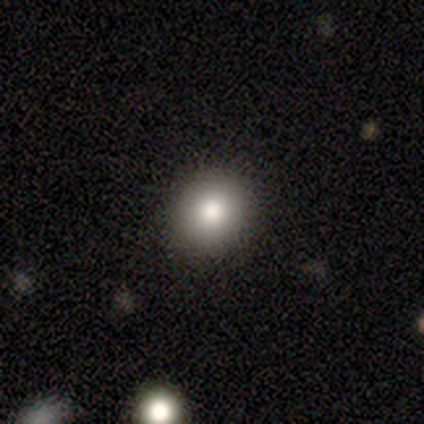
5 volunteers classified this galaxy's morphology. smooth 80%, star or artifact 20%, featured or disk 0%. Down the decision tree: how rounded — round (100%); merging — none (100%).